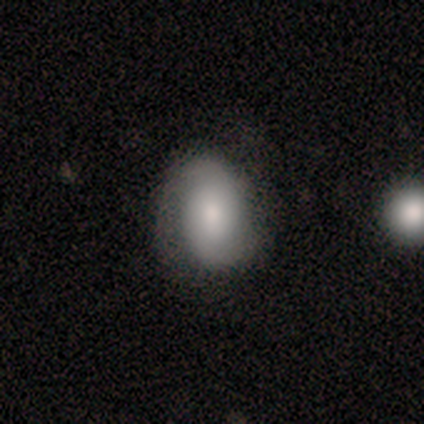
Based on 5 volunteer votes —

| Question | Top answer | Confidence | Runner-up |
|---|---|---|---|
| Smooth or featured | featured or disk | 60% | smooth (40%) |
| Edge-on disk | no | 100% | — |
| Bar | no | 67% | strong (33%) |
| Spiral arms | yes | 100% | — |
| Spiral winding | tight | 33% | tied: medium (33%), loose (33%) |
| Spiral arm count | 2 | 100% | — |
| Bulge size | dominant | 33% | tied: large (33%), moderate (33%) |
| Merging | none | 80% | merger (20%) |